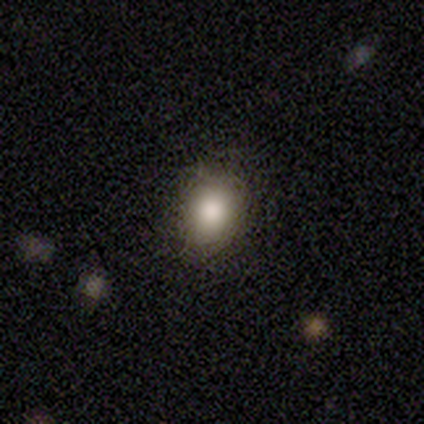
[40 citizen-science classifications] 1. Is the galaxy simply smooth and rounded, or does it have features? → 88% smooth, 10% star or artifact, 2% featured or disk.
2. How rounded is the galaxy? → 57% round, 43% in between, 0% cigar-shaped.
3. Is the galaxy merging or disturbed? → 89% none, 8% minor disturbance, 3% major disturbance, 0% merger.